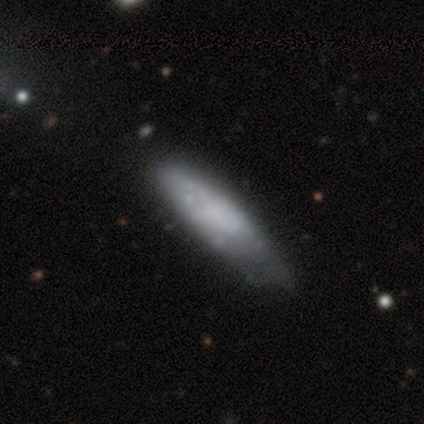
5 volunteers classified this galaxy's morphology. smooth-or-featured: smooth: 80% | featured or disk: 20% | star or artifact: 0%
  how-rounded: cigar-shaped: 75% | in between: 25% | round: 0%
  merging: none: 80% | major disturbance: 20% | minor disturbance: 0% | merger: 0%